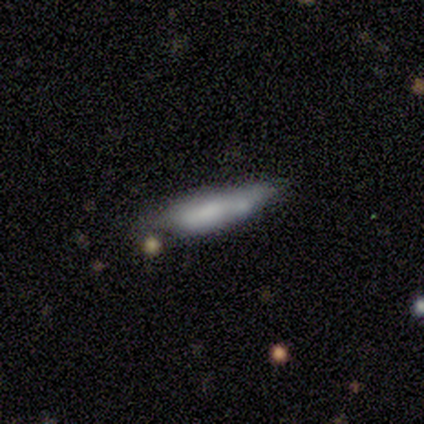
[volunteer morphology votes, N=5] smooth_or_featured: featured or disk (p=0.60) [alt: smooth p=0.40]
disk_edge_on: yes (p=0.67) [alt: no p=0.33]
edge_on_bulge: none (p=0.50) [tied with: rounded p=0.50]
merging: none (p=0.60) [alt: minor disturbance p=0.40]